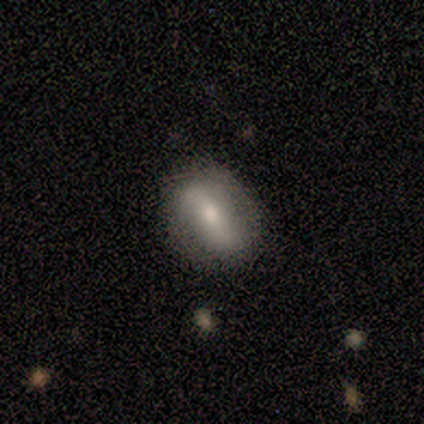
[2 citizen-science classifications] Overall: smooth (50%, tied with featured or disk). How rounded: in between (100%). Merging: none (100%).